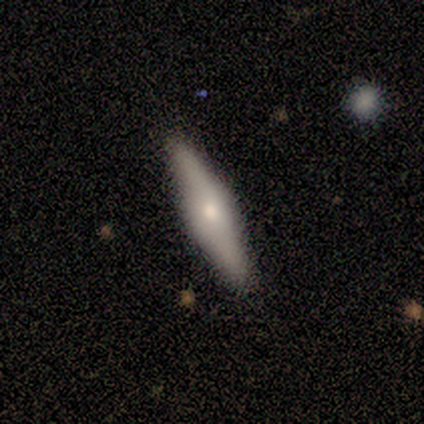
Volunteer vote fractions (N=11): Smooth or featured? 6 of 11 (55%) said featured or disk. Edge-on disk? 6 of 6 (100%) said yes. Edge-on bulge? 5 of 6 (83%) said rounded. Merging? 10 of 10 (100%) said none.